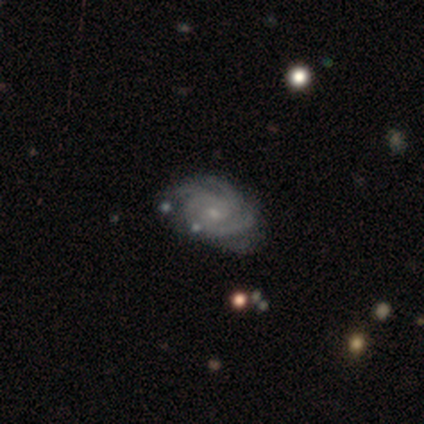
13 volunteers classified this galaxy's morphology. featured or disk 92%, star or artifact 8%, smooth 0%. Down the decision tree: edge-on disk — no (100%); bar — no (58%); spiral arms — yes (100%); spiral arm count — 3 (42%, tied with 4); spiral winding — tight (58%); bulge size — small (75%); merging — none (75%).